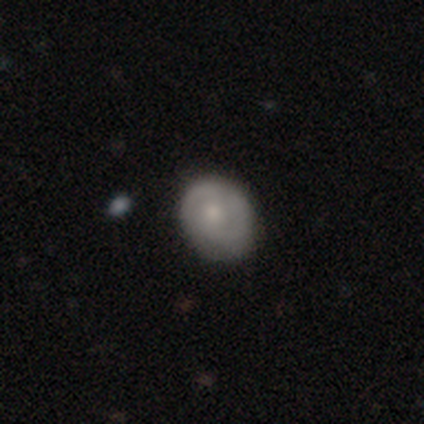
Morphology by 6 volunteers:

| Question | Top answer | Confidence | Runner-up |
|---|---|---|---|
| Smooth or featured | featured or disk | 83% | smooth (17%) |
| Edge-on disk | no | 100% | — |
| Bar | no | 60% | weak (40%) |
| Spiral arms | yes | 80% | no (20%) |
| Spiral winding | medium | 75% | tight (25%) |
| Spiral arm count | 2 | 100% | — |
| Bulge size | small | 60% | moderate (20%) |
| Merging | none | 83% | minor disturbance (17%) |